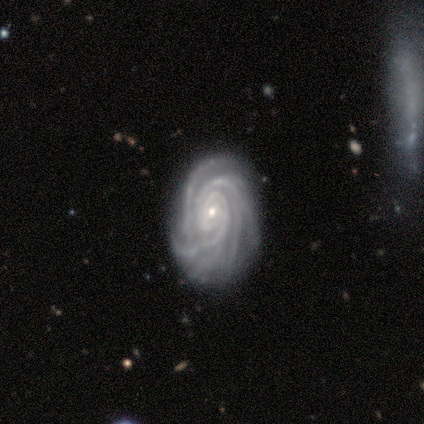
A featured or disk galaxy (100%) with no bar (80%), 4 (60%) tight (100%) spiral arms (100%) and a small central bulge (80%).

Vote fractions:
- Smooth or featured? featured or disk: 100% / smooth: 0% / star or artifact: 0%
- Edge-on disk? no: 100% / yes: 0%
- Bar? no: 80% / strong: 20% / weak: 0%
- Spiral arms? yes: 100% / no: 0%
- Spiral winding? tight: 100% / medium: 0% / loose: 0%
- Spiral arm count? 4: 60% / more than 4: 20% / can't tell: 20% / 1: 0% / 2: 0% / 3: 0%
- Bulge size? small: 80% / moderate: 20% / dominant: 0% / large: 0% / none: 0%
- Merging? none: 80% / minor disturbance: 20% / major disturbance: 0% / merger: 0%